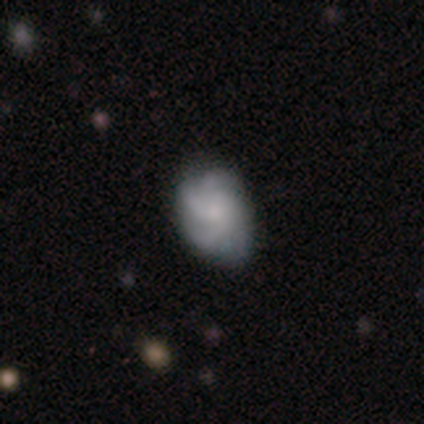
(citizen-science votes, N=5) This appears to be a featured or disk galaxy (60%) with a weak bar (67%), 2 (33%, tied with 3 and can't tell) tight (33%, tied with medium and loose) spiral arms (100%) and a small central bulge (67%). Merging: minor disturbance (60%).